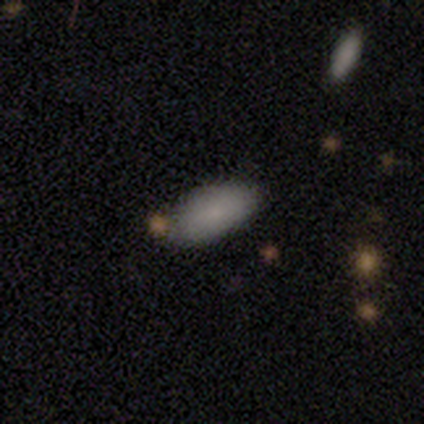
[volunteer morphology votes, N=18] Q: Smooth or featured?
A: smooth (89%); runner-up: featured or disk (6%)
Q: How rounded?
A: in between (100%)
Q: Merging?
A: none (82%); runner-up: minor disturbance (18%)